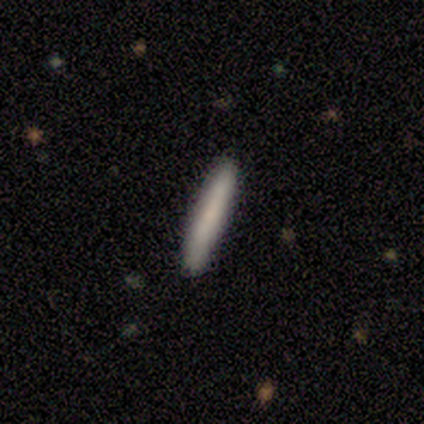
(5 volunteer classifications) smooth 100%, featured or disk 0%, star or artifact 0%. Down the decision tree: how rounded — cigar-shaped (80%); merging — none (60%).